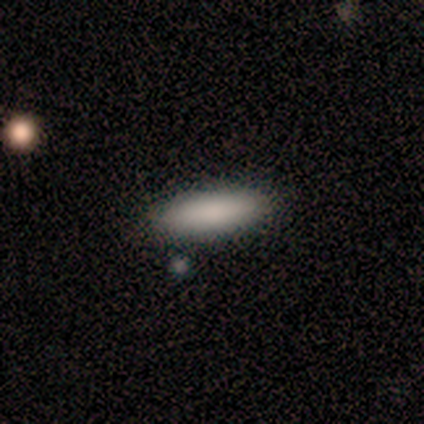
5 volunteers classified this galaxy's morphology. Volunteers were most divided on "how rounded": cigar-shaped: 60%, in between: 40%, round: 0%. More confident: smooth or featured — smooth (100%); merging — none (80%).